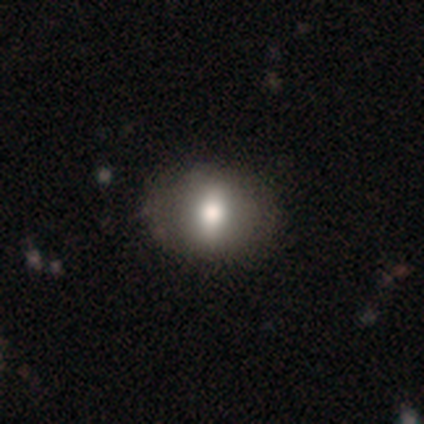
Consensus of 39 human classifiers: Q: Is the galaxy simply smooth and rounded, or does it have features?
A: smooth — 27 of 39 (69%).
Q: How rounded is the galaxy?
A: in between — 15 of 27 (56%).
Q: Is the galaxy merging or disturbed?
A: none — 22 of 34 (65%).